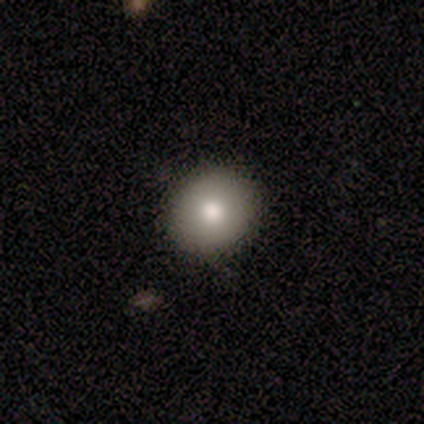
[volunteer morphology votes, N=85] A smooth galaxy with no disk features (75%) that is round (88%). Merging: none (94%).